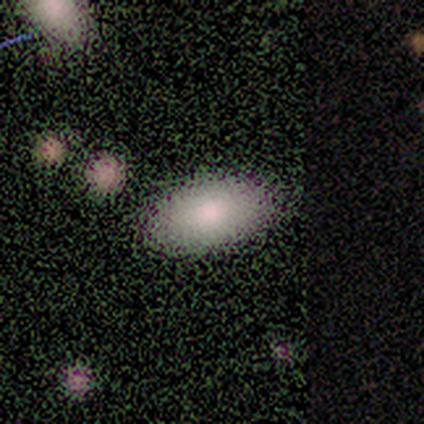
Morphology: type=smooth (80%); roundness=in between (75%); merging=minor disturbance (75%).